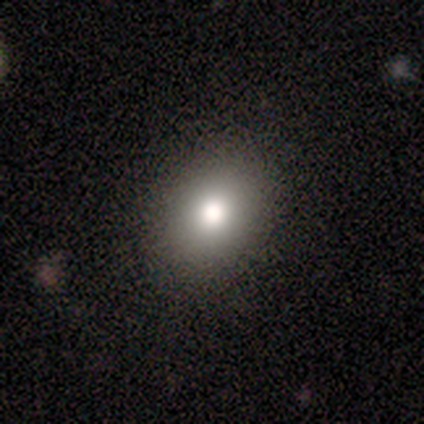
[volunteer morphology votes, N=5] Overall: smooth (80%). How rounded: round (50%, tied with in between). Merging: none (100%).